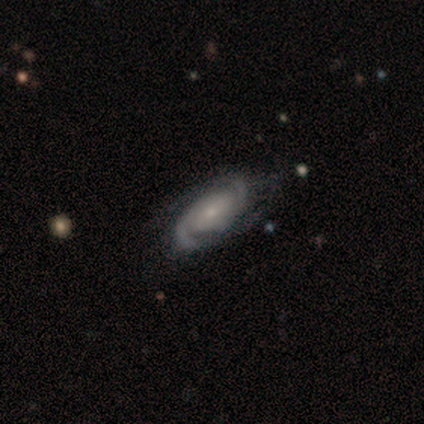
smooth_or_featured: featured or disk (p=0.93) [alt: smooth p=0.05]
disk_edge_on: no (p=1.00)
bar: weak (p=0.49) [alt: no p=0.41]
has_spiral_arms: yes (p=0.92) [alt: no p=0.08]
spiral_winding: medium (p=0.53) [alt: tight p=0.32]
spiral_arm_count: 2 (p=0.88) [alt: 3 p=0.09]
bulge_size: small (p=0.62) [alt: moderate p=0.35]
merging: none (p=0.77) [alt: minor disturbance p=0.13]